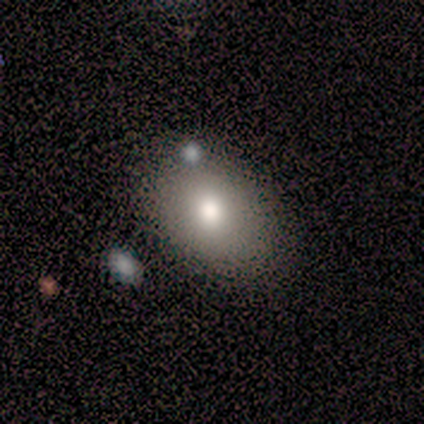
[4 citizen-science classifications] smooth-or-featured: smooth: 100% | featured or disk: 0% | star or artifact: 0%
  how-rounded: in between: 100% | round: 0% | cigar-shaped: 0%
  merging: none: 50% (tied) | minor disturbance: 50% (tied) | major disturbance: 0% | merger: 0%